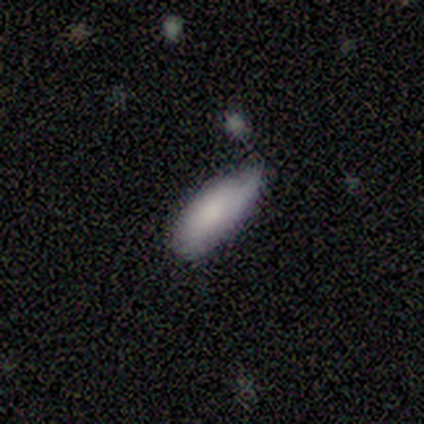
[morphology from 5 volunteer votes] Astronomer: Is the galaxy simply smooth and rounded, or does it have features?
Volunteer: smooth — 100%.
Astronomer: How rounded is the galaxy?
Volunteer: in between — 60% (runner-up: cigar-shaped, 40%).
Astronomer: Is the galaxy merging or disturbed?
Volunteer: none — 60% (runner-up: minor disturbance, 40%).